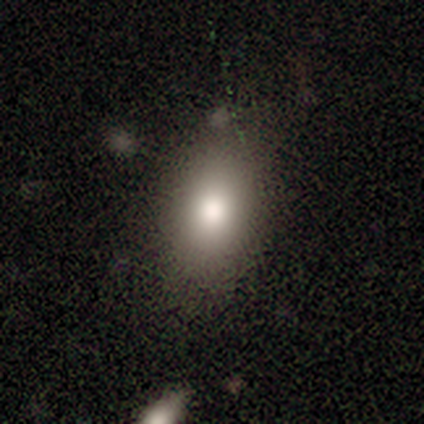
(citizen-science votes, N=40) A smooth galaxy with no disk features (90%) that is in between round and cigar-shaped (83%).

Vote fractions:
- Smooth or featured? smooth: 90% / featured or disk: 5% / star or artifact: 5%
- How rounded? in between: 83% / round: 14% / cigar-shaped: 3%
- Merging? none: 74% / minor disturbance: 16% / major disturbance: 5% / merger: 5%